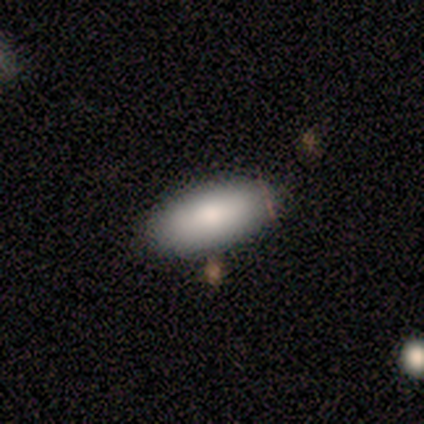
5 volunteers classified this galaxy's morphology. Smooth or featured: smooth — 100%
How rounded: in between — 100%
Merging: none — 100%